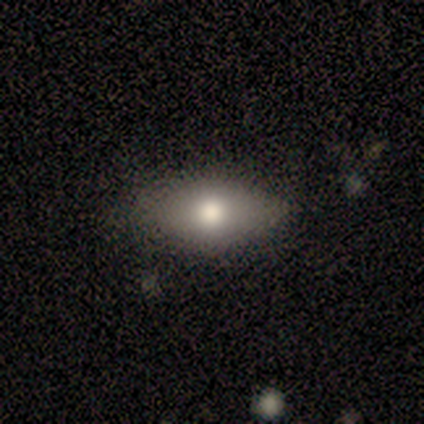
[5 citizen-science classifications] Overall: smooth (60%; featured or disk 40%). How rounded: in between (100%). Merging: none (100%).